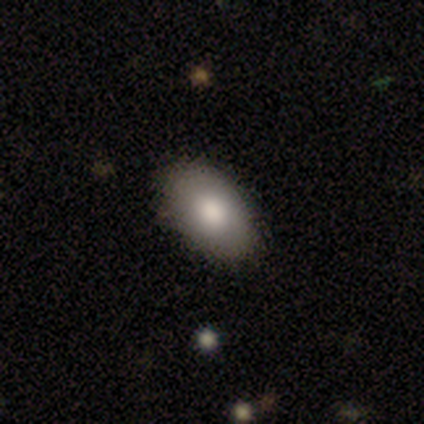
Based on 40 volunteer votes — Smooth or featured? smooth (70%)
How rounded? in between (89%)
Merging? none (85%)